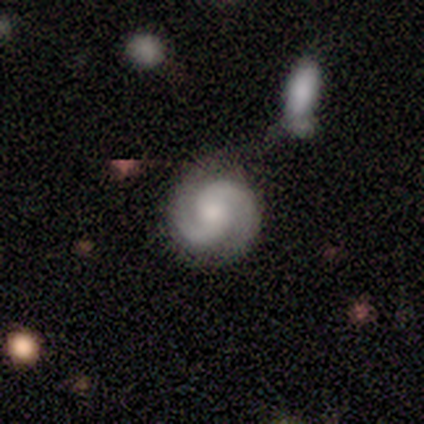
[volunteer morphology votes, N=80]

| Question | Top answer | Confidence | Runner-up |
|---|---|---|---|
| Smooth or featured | featured or disk | 88% | smooth (11%) |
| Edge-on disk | no | 97% | yes (3%) |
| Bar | no | 68% | weak (24%) |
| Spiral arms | yes | 96% | no (4%) |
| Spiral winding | medium | 45% | tight (42%) |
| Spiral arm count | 2 | 92% | can't tell (5%) |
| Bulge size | moderate | 47% | small (26%) |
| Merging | none | 41% | merger (14%) |